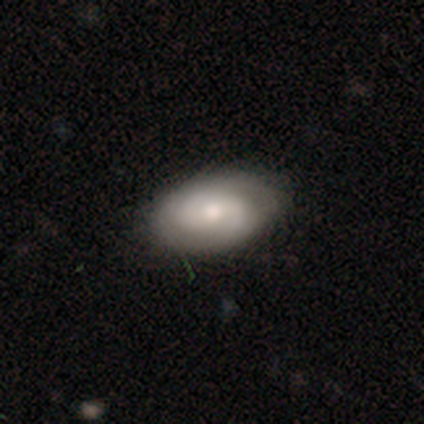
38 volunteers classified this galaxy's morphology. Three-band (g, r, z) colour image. It shows a featured or disk galaxy (76%) with no bar (57%), 2 (54%) tight (46%) spiral arms (86%) and a moderate central bulge (57%). Merging: none (91%).